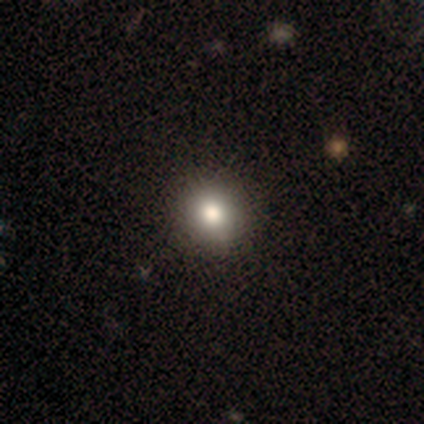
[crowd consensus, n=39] Smooth or featured? smooth (74%)
How rounded? round (79%)
Merging? none (69%)